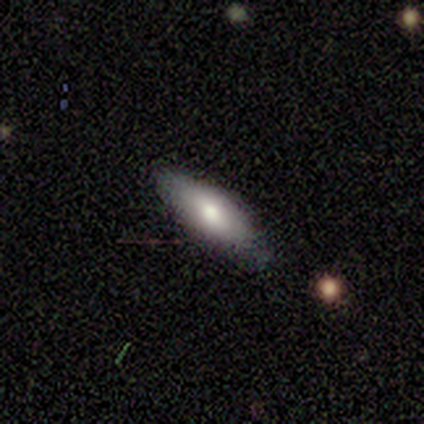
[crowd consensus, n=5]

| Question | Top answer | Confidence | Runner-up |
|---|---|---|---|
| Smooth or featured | smooth | 60% | featured or disk (40%) |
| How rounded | in between | 100% | — |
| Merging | none | 60% | minor disturbance (40%) |